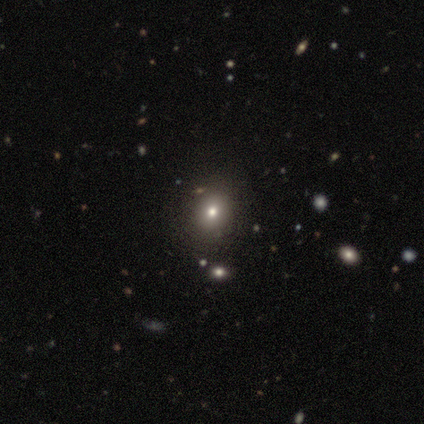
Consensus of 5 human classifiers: Smooth or featured? smooth (80%)
How rounded? round (50%, tied with in between)
Merging? none (75%)